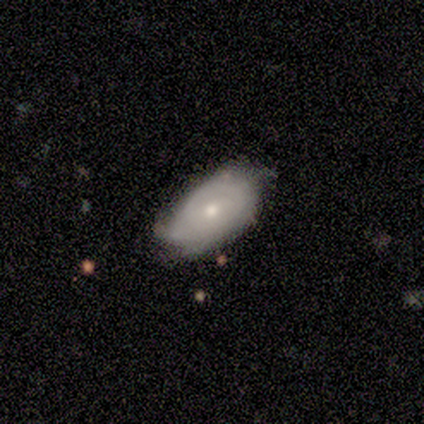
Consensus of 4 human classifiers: Smooth or featured? featured or disk (75%)
Edge-on disk? no (67%)
Bar? weak (50%, tied with no)
Spiral arms? yes (100%)
Spiral winding? tight (50%, tied with loose)
Spiral arm count? 4 (50%, tied with can't tell)
Bulge size? moderate (100%)
Merging? none (50%)